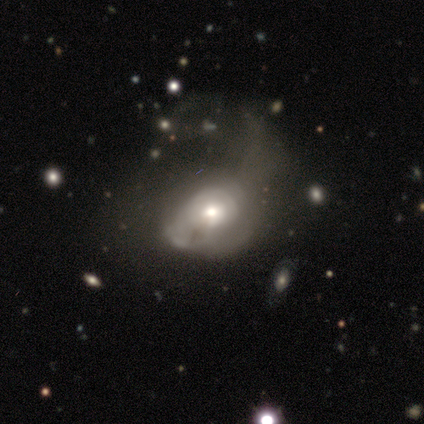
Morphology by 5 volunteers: featured or disk 60%, smooth 40%, star or artifact 0%. Down the decision tree: edge-on disk — no (100%); bar — no (100%); spiral arms — no (67%); bulge size — large (33%, tied with moderate and small); merging — major disturbance (60%).